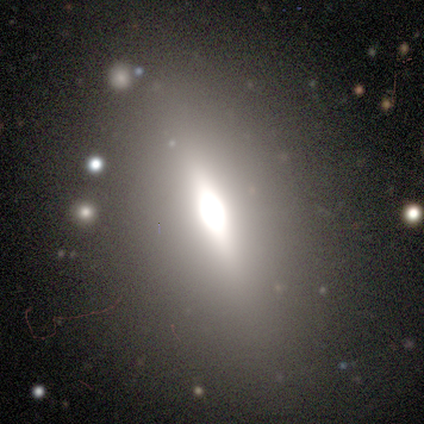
A featured or disk galaxy (56%) viewed edge-on (72%) with a rounded central bulge (83%). Merging: none (85%).